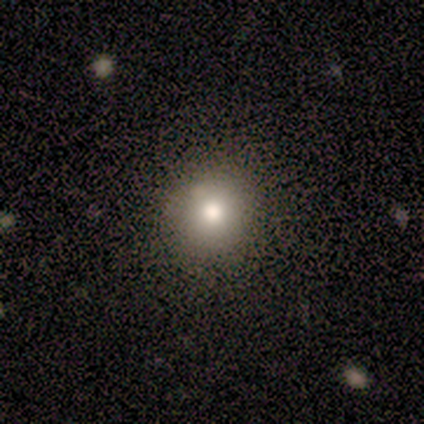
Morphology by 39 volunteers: Smooth or featured?
  - smooth: 67% *
  - star or artifact: 28%
  - featured or disk: 5%
How rounded?
  - round: 100% *
  - in between: 0%
  - cigar-shaped: 0%
Merging?
  - none: 61% *
  - major disturbance: 4%
  - merger: 4%
  - minor disturbance: 0%